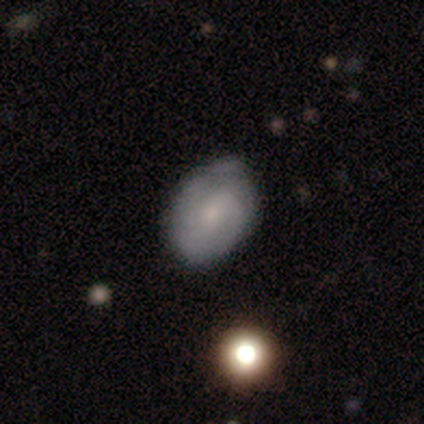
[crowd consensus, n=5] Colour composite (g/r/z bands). It shows a featured or disk galaxy (60%) with a strong bar (33%, tied with weak and no), 2 (100%) medium (100%) spiral arms (67%) and a small central bulge (67%). Merging: none (80%).